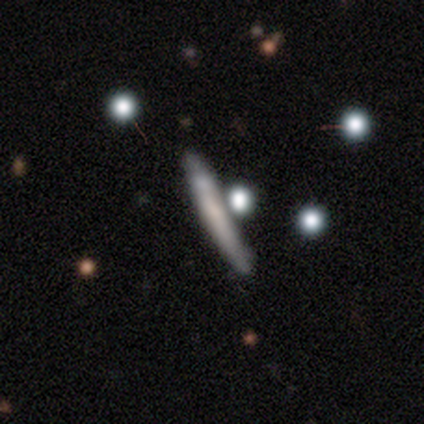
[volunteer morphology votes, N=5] smooth-or-featured: smooth: 80% | featured or disk: 20% | star or artifact: 0%
  how-rounded: cigar-shaped: 100% | round: 0% | in between: 0%
  merging: none: 80% | minor disturbance: 20% | major disturbance: 0% | merger: 0%